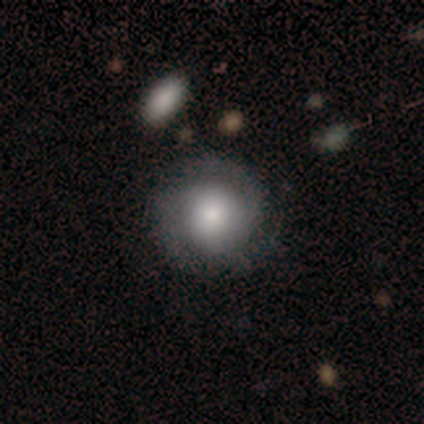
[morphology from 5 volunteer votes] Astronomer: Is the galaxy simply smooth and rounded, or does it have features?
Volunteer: smooth — 60%.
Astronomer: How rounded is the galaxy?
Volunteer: round — 100%.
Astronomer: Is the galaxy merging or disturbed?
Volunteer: none — 75%.